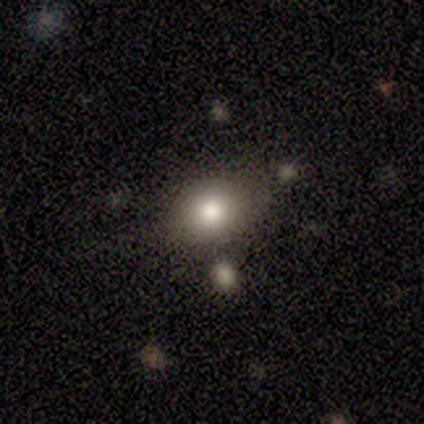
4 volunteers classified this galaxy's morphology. smooth_or_featured: smooth (p=0.75) [alt: star or artifact p=0.25]
how_rounded: in between (p=0.67) [alt: round p=0.33]
merging: none (p=0.33) [tied with: minor disturbance p=0.33, major disturbance p=0.33]